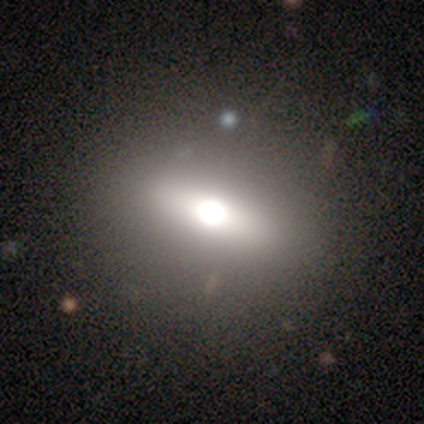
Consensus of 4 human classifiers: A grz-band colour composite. It shows a featured or disk galaxy (50%, tied with star or artifact) viewed edge-on (50%, tied with no) with a rounded central bulge (100%). Merging: none (50%, tied with minor disturbance).